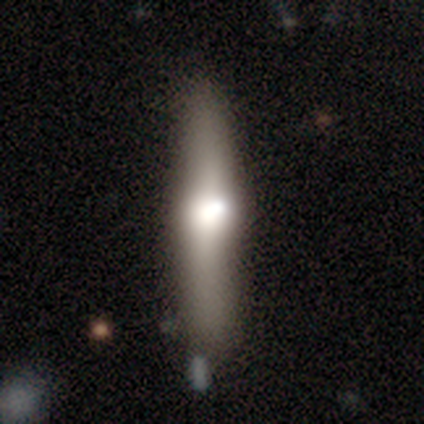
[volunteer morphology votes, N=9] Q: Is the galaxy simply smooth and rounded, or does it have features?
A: smooth — 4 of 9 (44%, tied with featured or disk).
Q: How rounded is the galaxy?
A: cigar-shaped — 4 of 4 (100%).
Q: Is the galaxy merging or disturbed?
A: none — 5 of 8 (62%).